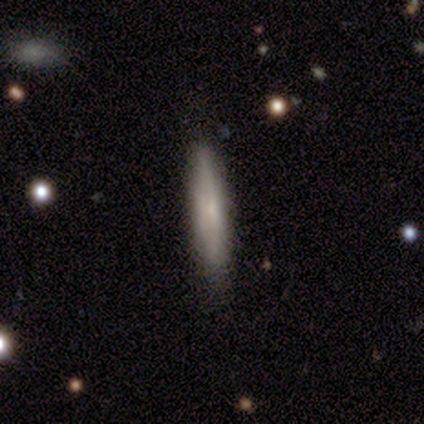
Q: Smooth or featured?
A: smooth (100%)
Q: How rounded?
A: cigar-shaped (100%)
Q: Merging?
A: none (100%)